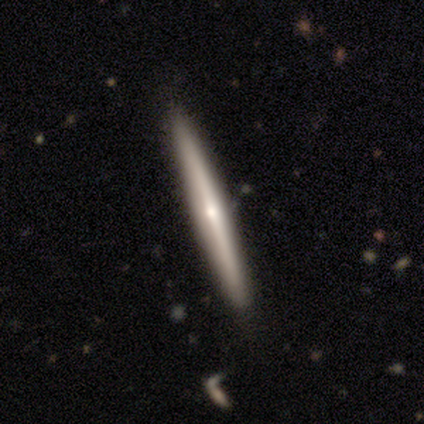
Smooth or featured? featured or disk (60%)
Edge-on disk? yes (100%)
Edge-on bulge? rounded (67%)
Merging? none (80%)